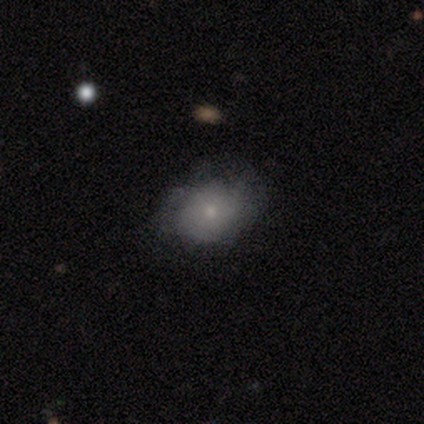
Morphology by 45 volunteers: Volunteers were most divided on "merging": none: 63%, minor disturbance: 27%, major disturbance: 10%, merger: 0%. More confident: how rounded — in between (77%); smooth or featured — smooth (67%).